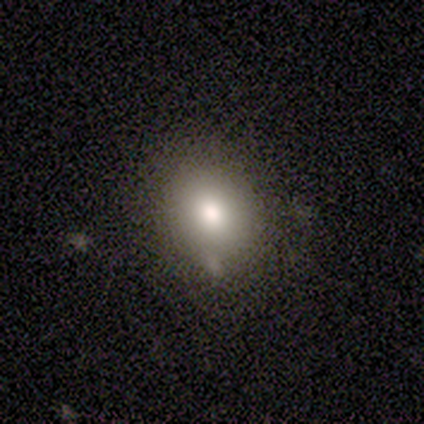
A smooth galaxy with no disk features (80%) that is in between round and cigar-shaped (75%).

Vote fractions:
- Smooth or featured? smooth: 80% / featured or disk: 20% / star or artifact: 0%
- How rounded? in between: 75% / round: 25% / cigar-shaped: 0%
- Merging? none: 100% / minor disturbance: 0% / major disturbance: 0% / merger: 0%